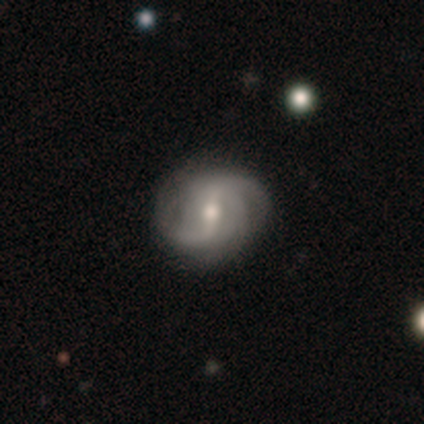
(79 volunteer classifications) Smooth or featured? featured or disk (86%)
Edge-on disk? no (100%)
Bar? weak (54%)
Spiral arms? yes (93%)
Spiral winding? loose (43%)
Spiral arm count? 2 (49%)
Bulge size? moderate (66%)
Merging? none (42%)